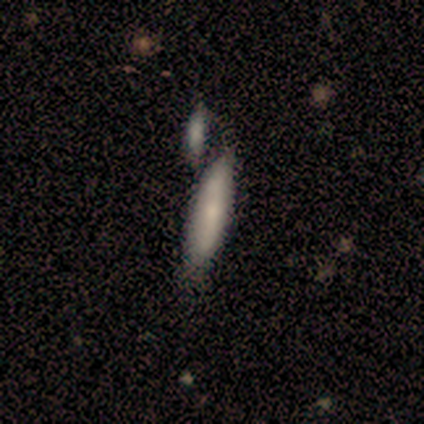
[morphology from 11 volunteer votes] Overall: smooth (73%). How rounded: cigar-shaped (75%). Merging: merger (45%; none 36%).